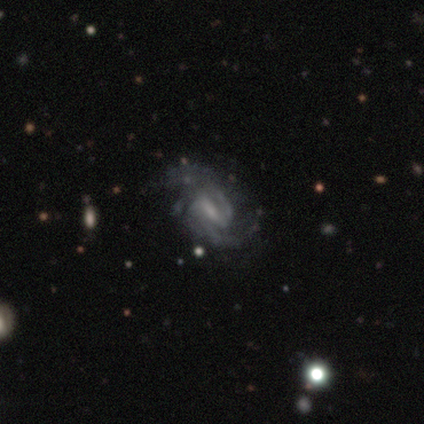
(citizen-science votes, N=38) featured or disk 97%, smooth 3%, star or artifact 0%. Down the decision tree: edge-on disk — no (95%); bar — weak (51%); spiral arms — yes (97%); spiral arm count — 2 (76%); spiral winding — medium (62%); bulge size — small (46%); merging — none (58%).